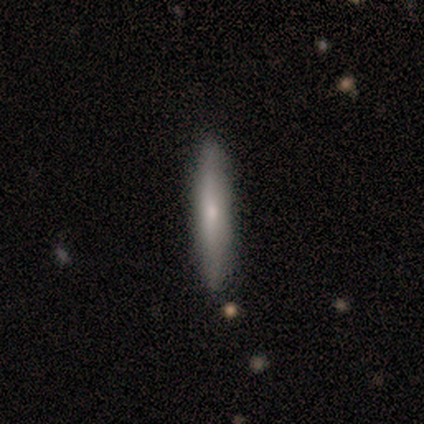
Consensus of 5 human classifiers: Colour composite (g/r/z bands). It shows a featured or disk galaxy (60%) viewed edge-on (67%) with a rounded central bulge (100%). Merging: none (60%).